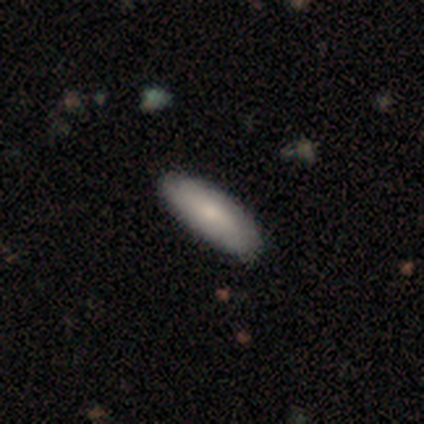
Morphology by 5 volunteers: Smooth or featured? smooth (60%)
How rounded? in between (67%)
Merging? none (80%)